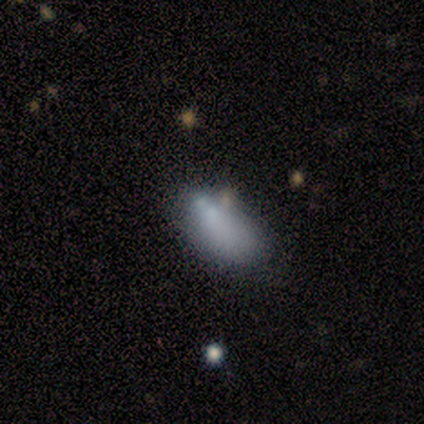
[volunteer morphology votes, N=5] smooth-or-featured: smooth: 40% (tied) | star or artifact: 40% (tied) | featured or disk: 20%
  how-rounded: in between: 100% | round: 0% | cigar-shaped: 0%
  merging: none: 33% (tied) | minor disturbance: 33% (tied) | major disturbance: 33% (tied) | merger: 0%